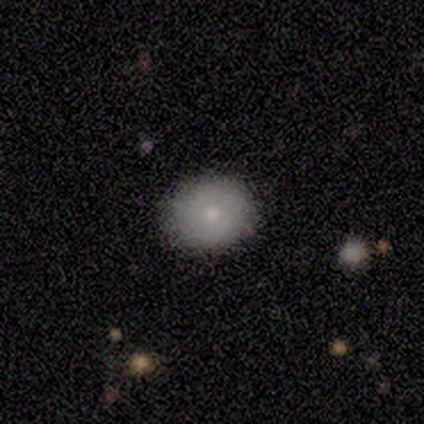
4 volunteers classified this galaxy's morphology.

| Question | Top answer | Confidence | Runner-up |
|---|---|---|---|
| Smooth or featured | smooth | 100% | — |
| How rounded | round | 100% | — |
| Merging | none | 100% | — |